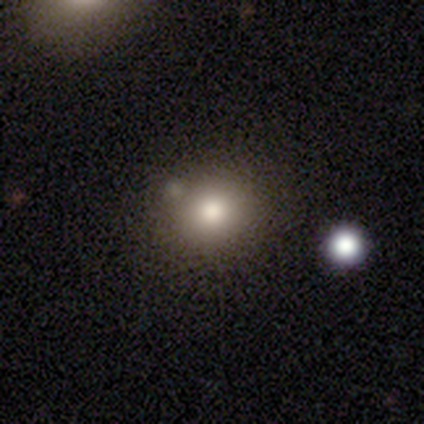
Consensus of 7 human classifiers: Smooth or featured? 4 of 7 (57%) said star or artifact.